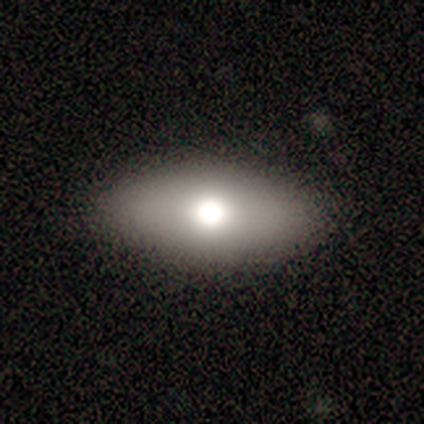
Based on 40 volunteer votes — Smooth or featured? smooth (57%)
How rounded? in between (87%)
Merging? none (88%)